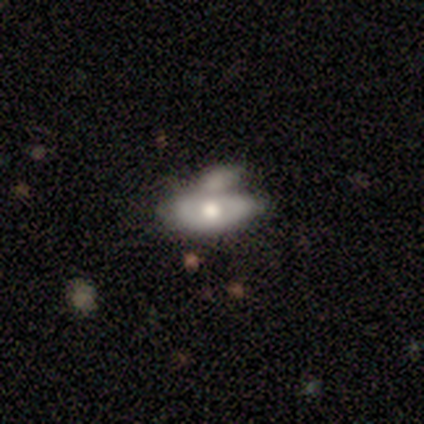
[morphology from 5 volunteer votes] A smooth galaxy with no disk features (80%) that is in between round and cigar-shaped (100%). Merging: merger (60%).